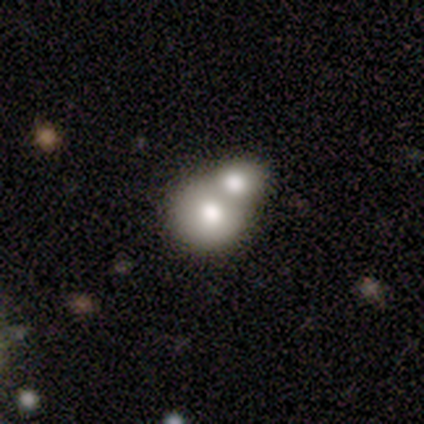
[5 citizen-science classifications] Volunteers were most divided on "how rounded": round: 75%, in between: 25%, cigar-shaped: 0%. More confident: merging — merger (100%); smooth or featured — smooth (80%).